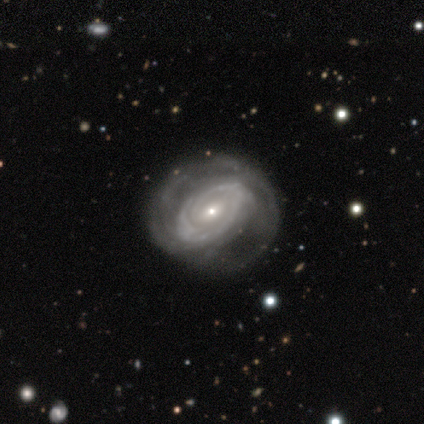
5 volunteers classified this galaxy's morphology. featured or disk 100%, smooth 0%, star or artifact 0%. Down the decision tree: edge-on disk — no (100%); bar — weak (60%); spiral arms — yes (100%); spiral arm count — can't tell (80%); spiral winding — tight (80%); bulge size — small (80%); merging — none (60%).